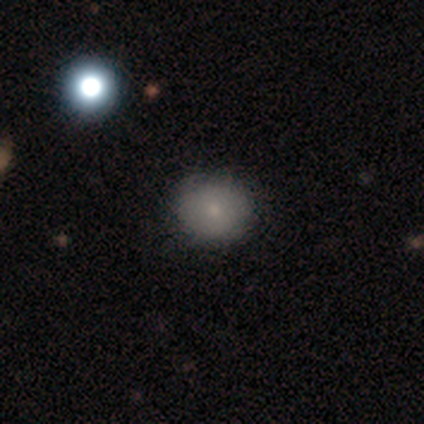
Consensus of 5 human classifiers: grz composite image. It shows a smooth galaxy with no disk features (80%) that is round (100%). Merging: none (60%).